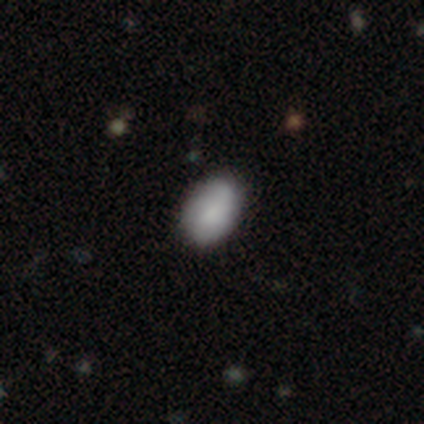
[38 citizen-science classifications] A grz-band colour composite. It shows a smooth galaxy with no disk features (82%) that is in between round and cigar-shaped (94%). Merging: none (89%).